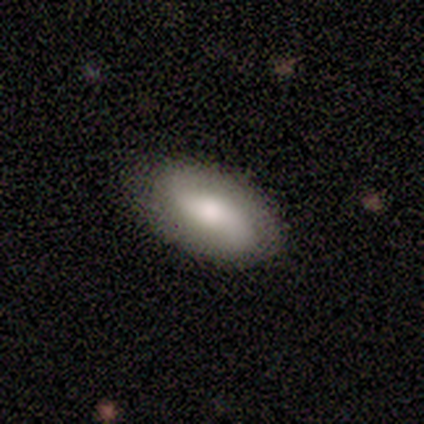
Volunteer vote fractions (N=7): Overall: featured or disk (57%; smooth 43%). Edge-on disk: no (100%). Bar: no (75%). Spiral arms: yes (75%). Spiral arm count: 2 (100%). Spiral winding: loose (100%). Bulge size: moderate (50%; large 25%). Merging: none (100%).